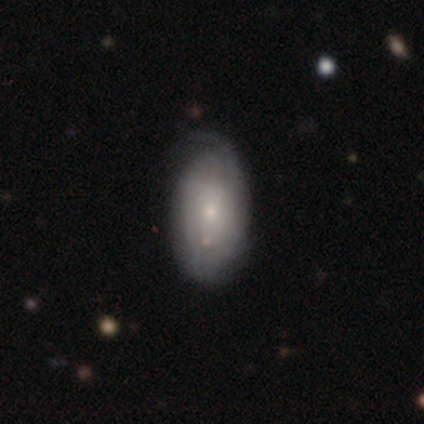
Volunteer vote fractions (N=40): Morphology: type=smooth (52%); roundness=in between (95%); merging=none (53%).